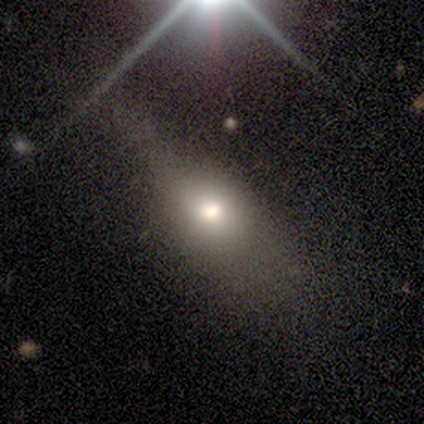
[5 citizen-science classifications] smooth_or_featured: smooth (p=0.60) [alt: featured or disk p=0.20]
how_rounded: round (p=0.33) [tied with: in between p=0.33, cigar-shaped p=0.33]
merging: none (p=0.50) [tied with: minor disturbance p=0.50]